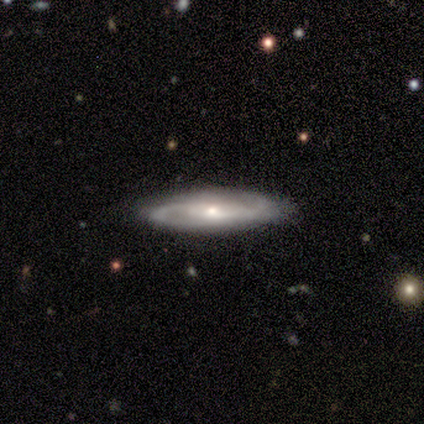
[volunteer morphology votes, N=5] smooth-or-featured: featured or disk: 100% | smooth: 0% | star or artifact: 0%
  disk-edge-on: no: 100% | yes: 0%
    bar: weak: 80% | no: 20% | strong: 0%
    has-spiral-arms: yes: 100% | no: 0%
      spiral-winding: medium: 80% | loose: 20% | tight: 0%
      spiral-arm-count: 2: 100% | 1: 0% | 3: 0% | 4: 0% | more than 4: 0% | can't tell: 0%
    bulge-size: small: 80% | moderate: 20% | dominant: 0% | large: 0% | none: 0%
  merging: none: 100% | minor disturbance: 0% | major disturbance: 0% | merger: 0%